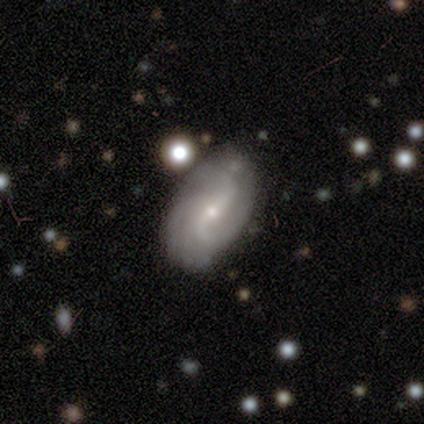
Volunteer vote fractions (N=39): This appears to be a featured or disk galaxy (85%) with a weak bar (52%), 2 (48%) loose (58%) spiral arms (94%) and a small central bulge (76%). Merging: none (41%).